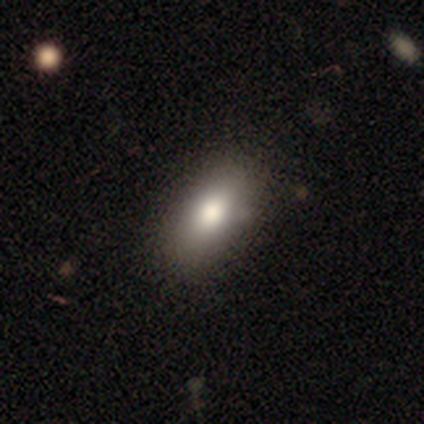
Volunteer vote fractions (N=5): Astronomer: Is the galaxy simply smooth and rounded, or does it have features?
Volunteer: smooth — 80%.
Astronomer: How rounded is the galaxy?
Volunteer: in between — 100%.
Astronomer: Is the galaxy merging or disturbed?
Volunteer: none — 80%.